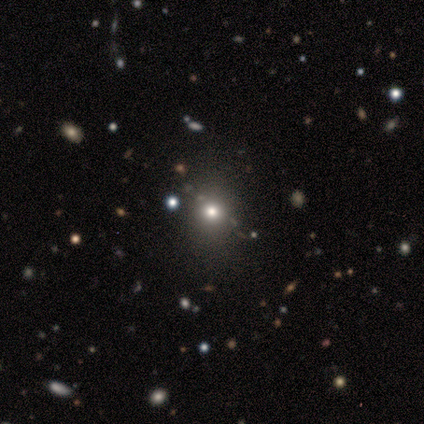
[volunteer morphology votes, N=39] A smooth galaxy with no disk features (67%) that is round (88%). Merging: none (89%).